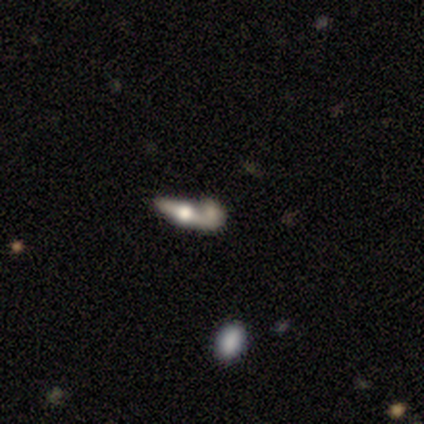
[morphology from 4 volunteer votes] This is likely a featured or disk galaxy (75%). It is clearly viewed edge-on (100%). Edge-on bulge: clearly rounded (100%). Merging: possibly merger (50%).